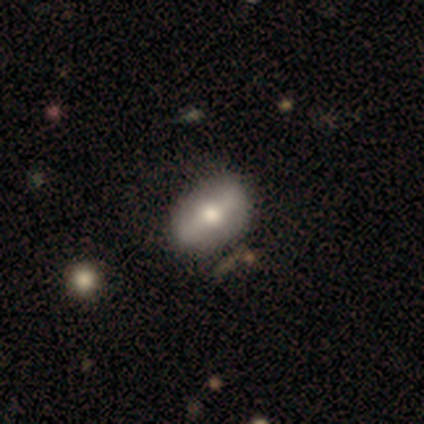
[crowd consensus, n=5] Smooth or featured: smooth — 60% (featured or disk — 40%)
How rounded: round — 67% (in between — 33%)
Merging: none — 100%